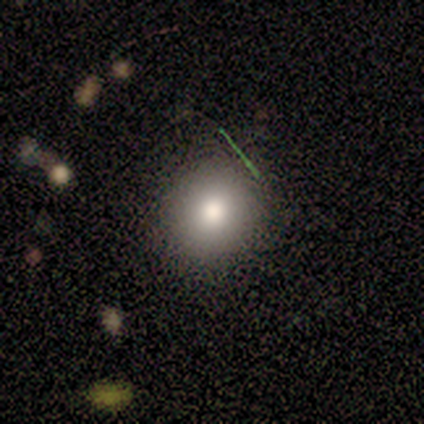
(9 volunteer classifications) smooth-or-featured: smooth: 78% | star or artifact: 22% | featured or disk: 0%
  how-rounded: round: 86% | in between: 14% | cigar-shaped: 0%
  merging: none: 86% | minor disturbance: 14% | major disturbance: 0% | merger: 0%